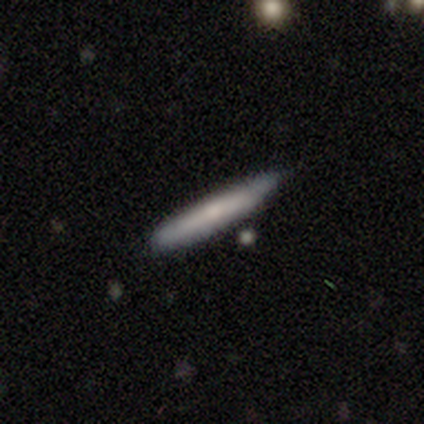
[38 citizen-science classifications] A smooth galaxy with no disk features (66%) that is cigar-shaped (88%). Merging: none (62%).